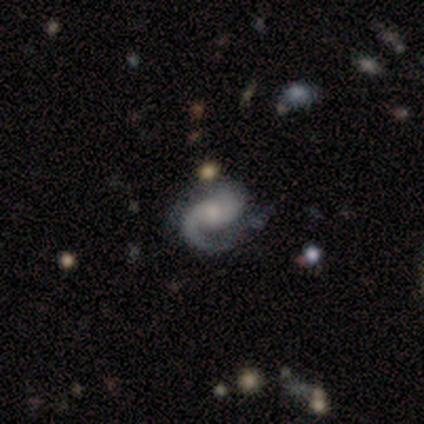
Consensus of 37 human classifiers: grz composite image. It shows a featured or disk galaxy (89%) with no bar (53%), 2 (53%) medium (44%) spiral arms (100%) and a small central bulge (56%). Merging: none (74%).